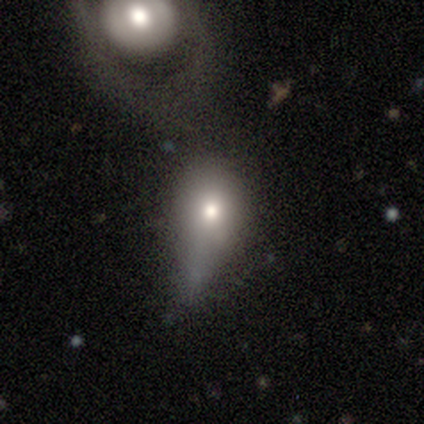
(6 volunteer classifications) Q: Smooth or featured?
A: smooth (83%); runner-up: star or artifact (17%)
Q: How rounded?
A: in between (60%); runner-up: round (40%)
Q: Merging?
A: minor disturbance (40%); runner-up: none (20%)